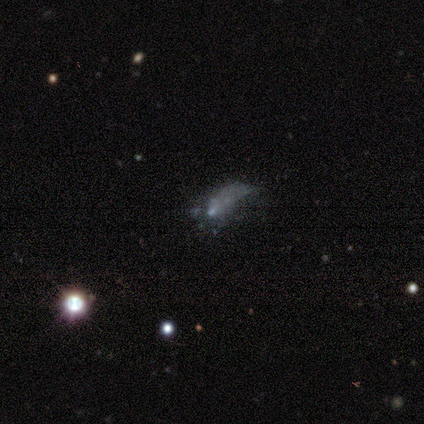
Smooth or featured? featured or disk (46%)
Edge-on disk? no (100%)
Bar? no (83%)
Spiral arms? no (100%)
Bulge size? none (50%)
Merging? none (50%)